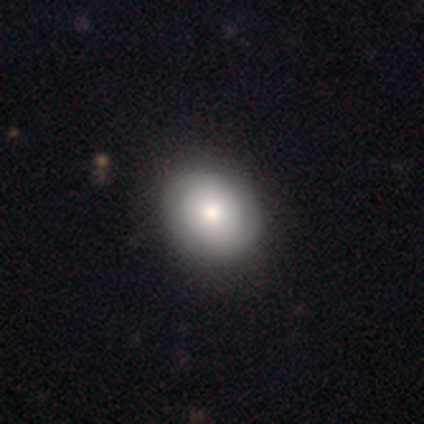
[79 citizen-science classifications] Morphology: type=smooth (61%); roundness=round (65%); merging=none (42%).